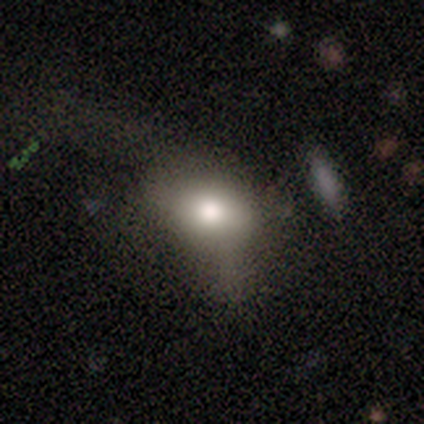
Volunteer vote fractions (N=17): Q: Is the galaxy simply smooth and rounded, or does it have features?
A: smooth — 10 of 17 (59%).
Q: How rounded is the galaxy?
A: in between — 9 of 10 (90%).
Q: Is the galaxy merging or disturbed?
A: major disturbance — 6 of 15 (40%).